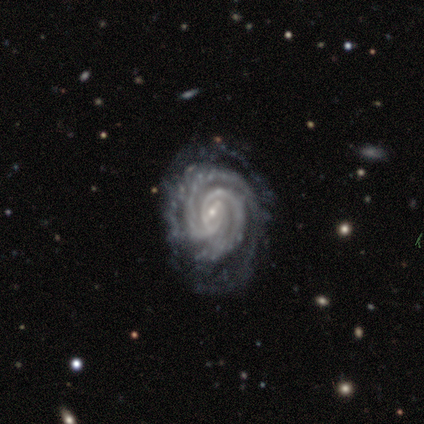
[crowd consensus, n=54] This appears to be a featured or disk galaxy (89%) with a weak bar (74%), 2 (41%) tight (89%) spiral arms (98%) and a small central bulge (89%). Merging: none (68%).